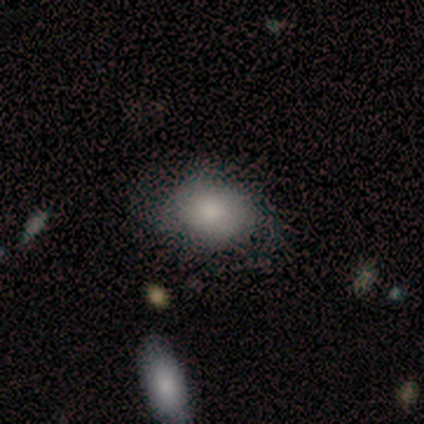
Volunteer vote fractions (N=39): Morphology: type=smooth (72%); roundness=round (50%, tied with in between); merging=none (60%).